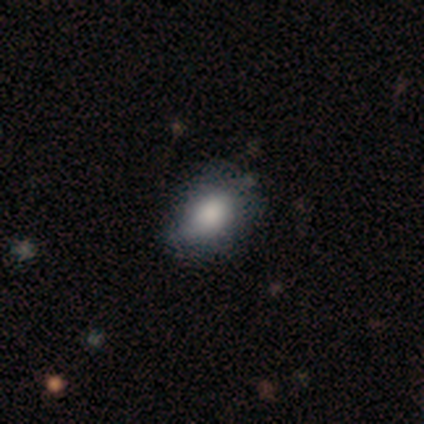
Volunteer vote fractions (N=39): Smooth or featured? 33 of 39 (85%) said smooth. How rounded? 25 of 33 (76%) said in between. Merging? 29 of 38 (76%) said none.